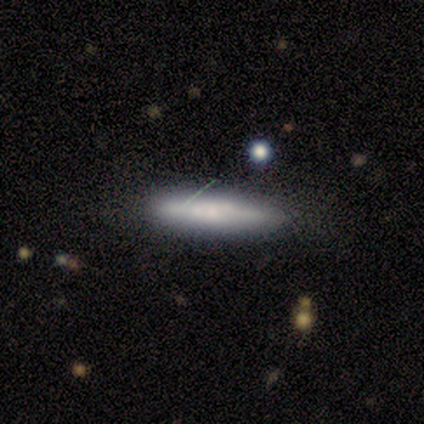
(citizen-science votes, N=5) A smooth galaxy with no disk features (80%) that is cigar-shaped (100%). Merging: none (80%).